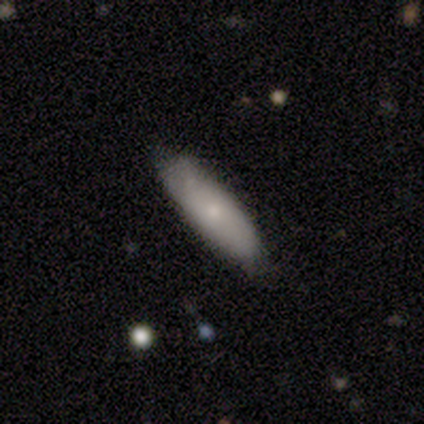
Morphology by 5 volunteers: A smooth galaxy with no disk features (100%) that is in between round and cigar-shaped (60%). Merging: none (60%).